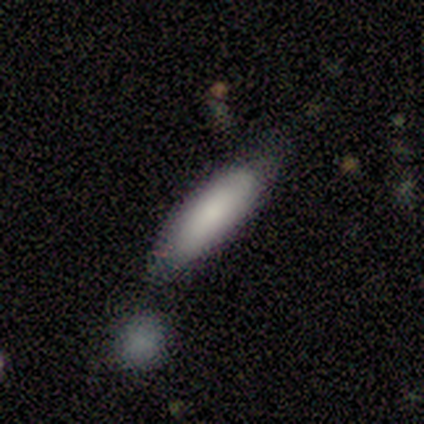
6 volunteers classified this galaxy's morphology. Q: Smooth or featured?
A: smooth (67%); runner-up: featured or disk (33%)
Q: How rounded?
A: in between (50%); tied with: cigar-shaped (50%)
Q: Merging?
A: none (67%); runner-up: minor disturbance (33%)